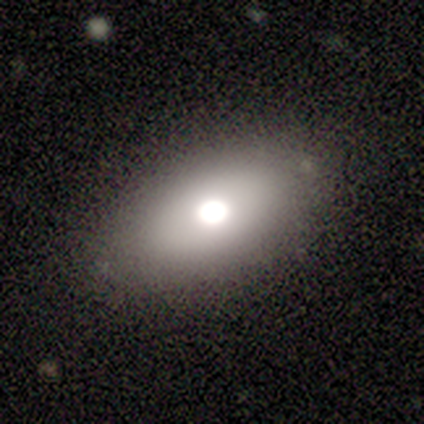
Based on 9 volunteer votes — smooth-or-featured: smooth: 67% | featured or disk: 22% | star or artifact: 11%
  how-rounded: in between: 100% | round: 0% | cigar-shaped: 0%
  merging: none: 100% | minor disturbance: 0% | major disturbance: 0% | merger: 0%